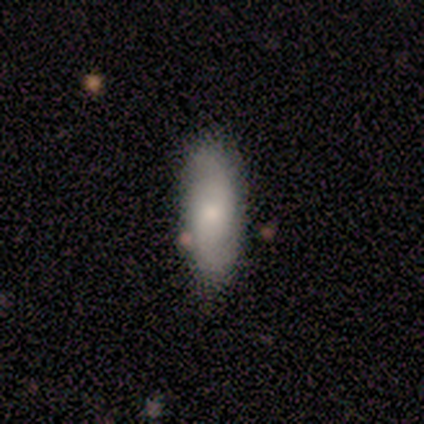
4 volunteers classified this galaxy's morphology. A smooth galaxy with no disk features (50%, tied with featured or disk) that is in between round and cigar-shaped (50%, tied with cigar-shaped).

Vote fractions:
- Smooth or featured? smooth: 50% (tied) / featured or disk: 50% (tied) / star or artifact: 0%
- How rounded? in between: 50% (tied) / cigar-shaped: 50% (tied) / round: 0%
- Merging? none: 75% / minor disturbance: 25% / major disturbance: 0% / merger: 0%